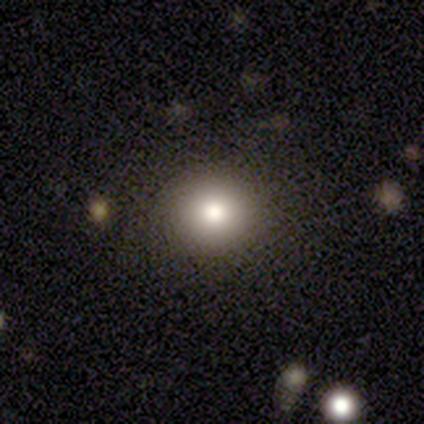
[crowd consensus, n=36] smooth-or-featured: smooth: 67% | featured or disk: 17% | star or artifact: 17%
  how-rounded: round: 96% | in between: 4% | cigar-shaped: 0%
  merging: none: 97% | merger: 3% | minor disturbance: 0% | major disturbance: 0%